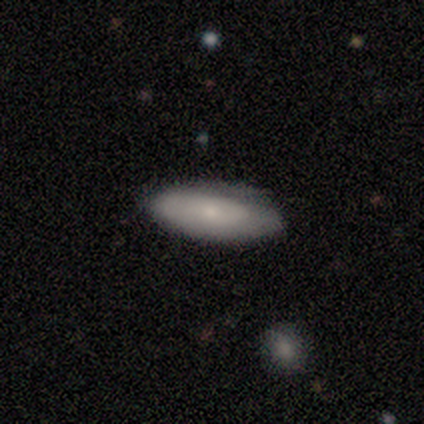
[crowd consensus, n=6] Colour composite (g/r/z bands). It shows a smooth galaxy with no disk features (67%) that is in between round and cigar-shaped (100%). Merging: none (80%).